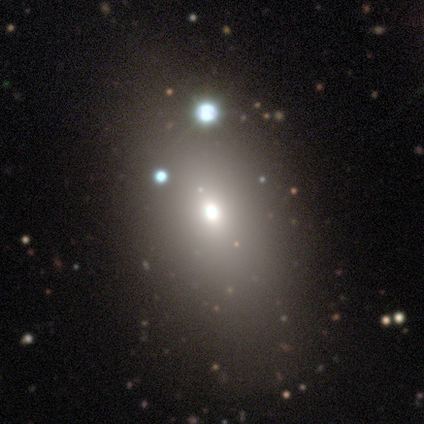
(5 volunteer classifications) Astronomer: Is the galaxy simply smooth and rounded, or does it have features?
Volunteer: smooth — 40%, tied with featured or disk at 40%.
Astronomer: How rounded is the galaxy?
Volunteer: round — 100%.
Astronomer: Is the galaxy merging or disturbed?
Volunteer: none — 100%.